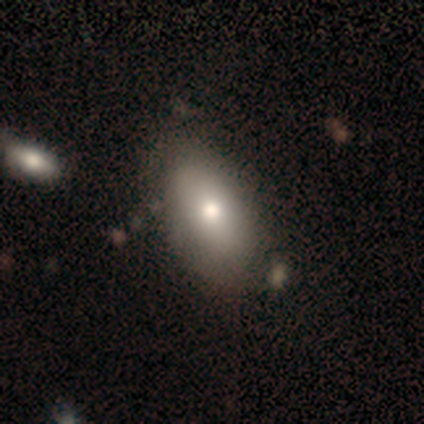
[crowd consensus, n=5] A smooth galaxy with no disk features (60%) that is in between round and cigar-shaped (100%).

Vote fractions:
- Smooth or featured? smooth: 60% / featured or disk: 40% / star or artifact: 0%
- How rounded? in between: 100% / round: 0% / cigar-shaped: 0%
- Merging? none: 40% (tied) / minor disturbance: 40% (tied) / merger: 20% / major disturbance: 0%